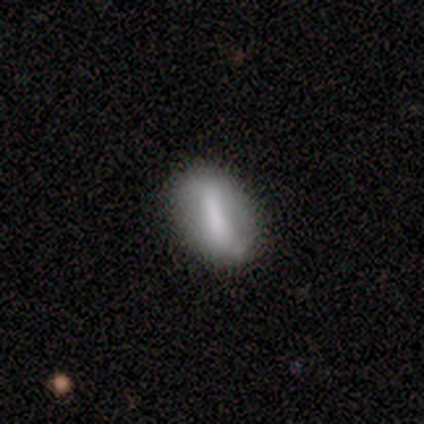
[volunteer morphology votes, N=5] type=smooth (80%); roundness=in between (100%); merging=none (80%).